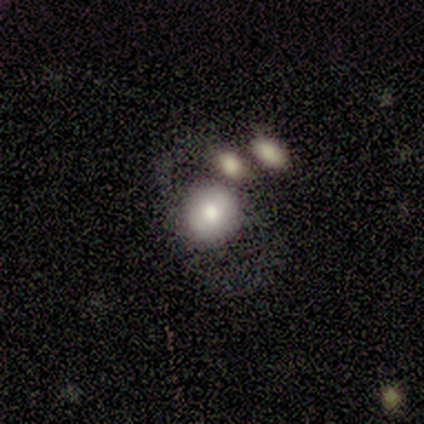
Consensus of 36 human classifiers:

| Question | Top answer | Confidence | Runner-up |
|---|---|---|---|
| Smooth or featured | smooth | 67% | featured or disk (25%) |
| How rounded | round | 75% | in between (25%) |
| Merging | none | 33% | merger (30%) |